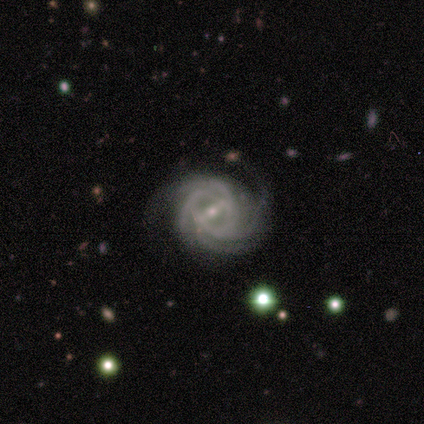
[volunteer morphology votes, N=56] This is clearly a featured or disk galaxy (89%). It is clearly not viewed edge-on (100%). Bar: possibly strong (50%). Spiral arm pattern: clearly yes (100%). Spiral arm count: possibly 4 (52%). Spiral winding: likely tight (60%). Central bulge: likely small (70%). Merging: likely none (67%).